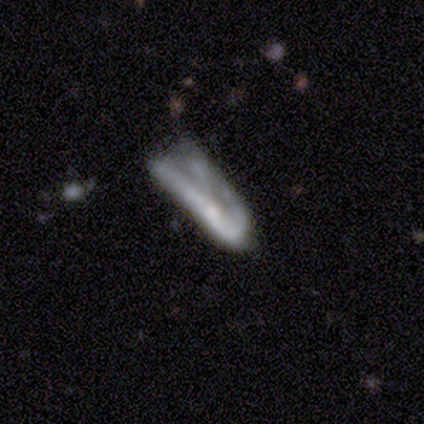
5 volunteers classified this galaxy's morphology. Smooth or featured? smooth (40%, tied with featured or disk)
How rounded? in between (50%, tied with cigar-shaped)
Merging? major disturbance (75%)